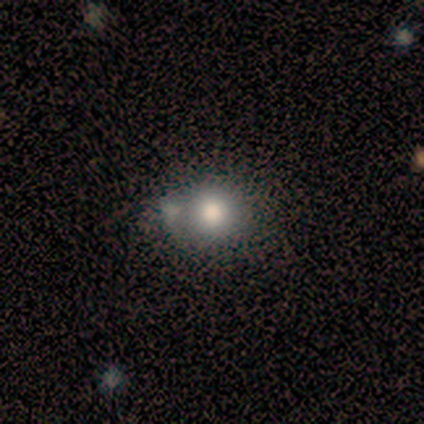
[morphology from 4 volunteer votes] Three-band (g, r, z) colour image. It shows a smooth galaxy with no disk features (50%) that is round (50%, tied with in between). Merging: none (100%).